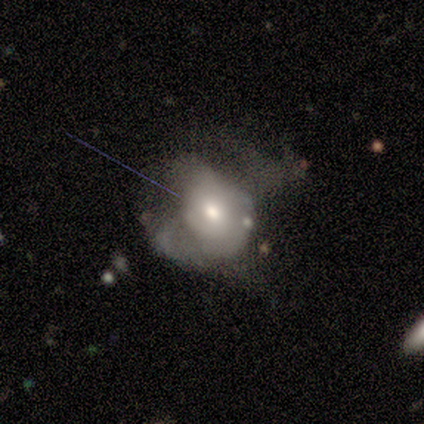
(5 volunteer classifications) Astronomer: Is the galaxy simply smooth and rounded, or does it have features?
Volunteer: featured or disk — 60% (runner-up: smooth, 40%).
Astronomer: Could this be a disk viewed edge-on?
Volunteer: no — 100%.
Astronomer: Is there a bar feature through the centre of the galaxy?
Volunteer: no — 100%.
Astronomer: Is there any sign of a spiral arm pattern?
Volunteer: no — 100%.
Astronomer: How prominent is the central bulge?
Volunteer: small — 67%.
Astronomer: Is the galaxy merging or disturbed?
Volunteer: minor disturbance — 40% (runner-up: none, 20%).